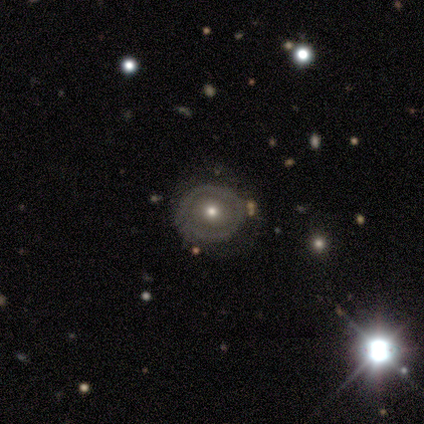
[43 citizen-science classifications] Volunteers were most divided on "bulge size": moderate: 58%, small: 38%, large: 4%, dominant: 0%, none: 0%. More confident: edge-on disk — no (96%); spiral arms — no (88%); bar — no (79%); merging — none (67%); smooth or featured — featured or disk (58%).